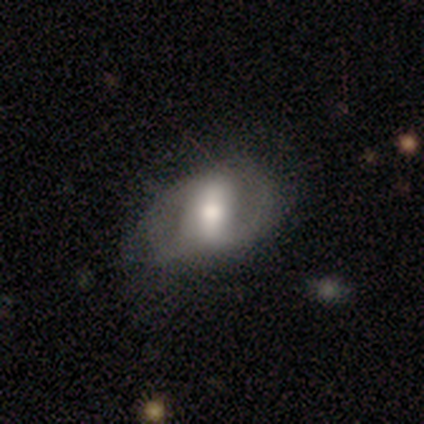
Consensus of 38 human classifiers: Smooth or featured? 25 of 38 (66%) said featured or disk. Edge-on disk? 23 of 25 (92%) said no. Bar? 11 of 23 (48%) said strong. Spiral arms? 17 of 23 (74%) said yes. Spiral winding? 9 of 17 (53%) said medium. Spiral arm count? 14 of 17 (82%) said 2. Bulge size? 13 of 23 (57%) said moderate. Merging? 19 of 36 (53%) said none.